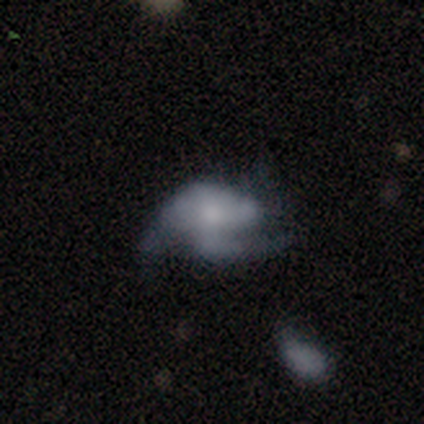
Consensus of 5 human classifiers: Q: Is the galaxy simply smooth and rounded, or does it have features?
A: featured or disk — 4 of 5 (80%).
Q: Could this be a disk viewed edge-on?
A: no — 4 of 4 (100%).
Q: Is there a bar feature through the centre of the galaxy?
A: no — 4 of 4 (100%).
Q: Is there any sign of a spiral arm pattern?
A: yes — 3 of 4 (75%).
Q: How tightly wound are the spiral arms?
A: medium — 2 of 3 (67%).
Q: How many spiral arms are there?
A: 2 — 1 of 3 (33%, tied with 3 and can't tell).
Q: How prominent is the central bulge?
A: large — 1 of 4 (25%, tied with moderate, small and none).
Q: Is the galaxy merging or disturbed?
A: none — 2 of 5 (40%, tied with major disturbance).